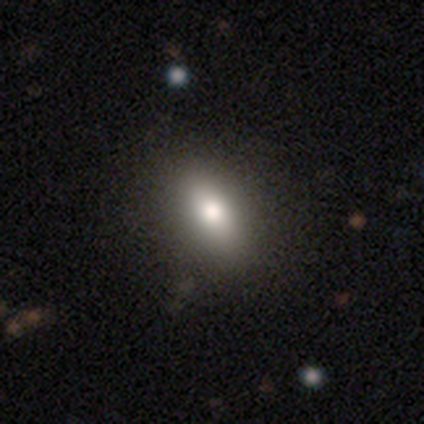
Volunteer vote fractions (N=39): Morphology: type=smooth (85%); roundness=in between (85%); merging=none (75%).